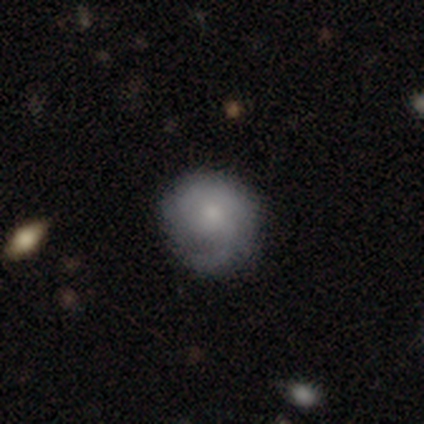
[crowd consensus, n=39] Smooth or featured? 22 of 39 (56%) said featured or disk. Edge-on disk? 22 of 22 (100%) said no. Bar? 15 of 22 (68%) said no. Spiral arms? 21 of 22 (95%) said yes. Spiral winding? 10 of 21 (48%) said loose. Spiral arm count? 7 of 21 (33%, tied with 2) said 1. Bulge size? 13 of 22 (59%) said small. Merging? 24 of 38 (63%) said none.